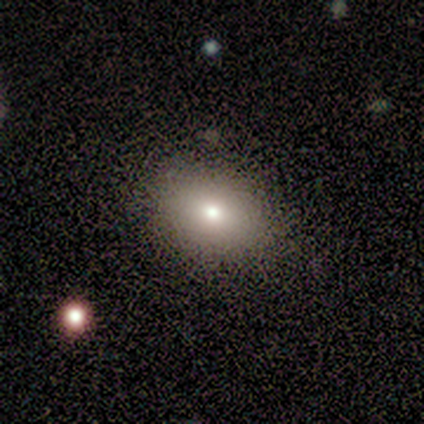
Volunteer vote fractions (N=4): This is likely a smooth galaxy (75%). How rounded: likely in between (67%). Merging: likely none (75%).